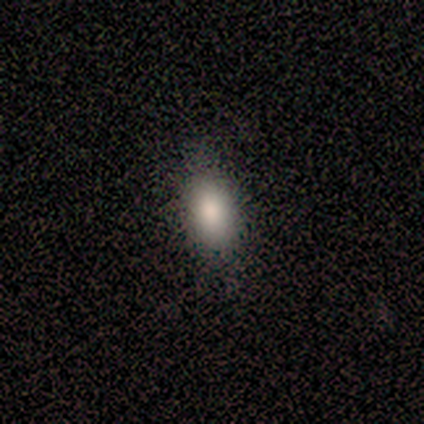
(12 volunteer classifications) This appears to be a smooth galaxy with no disk features (67%) that is in between round and cigar-shaped (100%). Merging: none (82%).